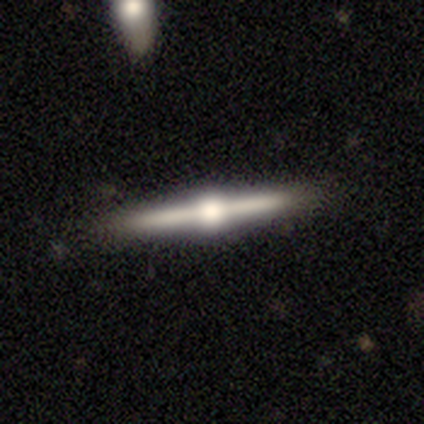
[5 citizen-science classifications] Smooth or featured? featured or disk (100%)
Edge-on disk? yes (80%)
Edge-on bulge? rounded (100%)
Merging? none (100%)